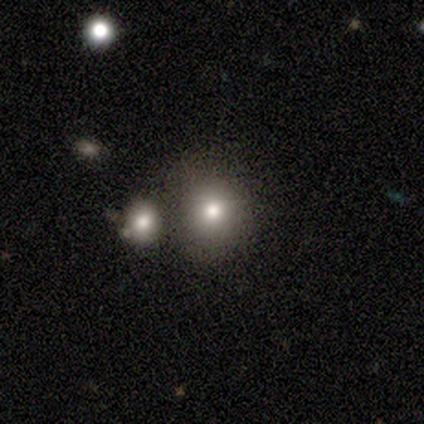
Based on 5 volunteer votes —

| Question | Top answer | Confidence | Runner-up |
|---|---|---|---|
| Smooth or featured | smooth | 80% | featured or disk (20%) |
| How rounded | round | 75% | in between (25%) |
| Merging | none | 60% | merger (40%) |